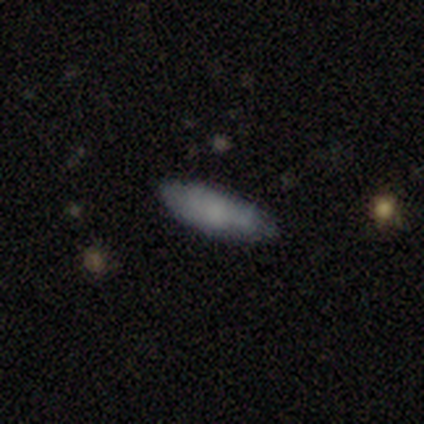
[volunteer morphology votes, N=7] Smooth or featured? smooth (86%)
How rounded? cigar-shaped (67%)
Merging? none (100%)